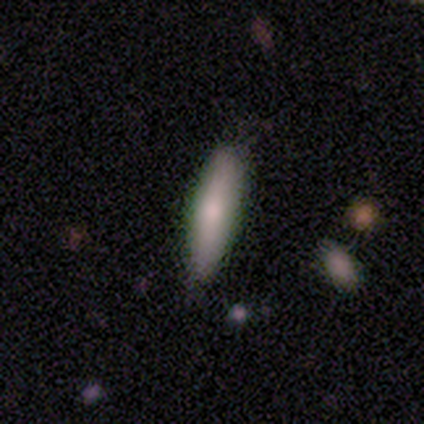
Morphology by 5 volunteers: A smooth galaxy with no disk features (60%) that is in between round and cigar-shaped (67%).

Vote fractions:
- Smooth or featured? smooth: 60% / featured or disk: 20% / star or artifact: 20%
- How rounded? in between: 67% / cigar-shaped: 33% / round: 0%
- Merging? none: 50% (tied) / minor disturbance: 50% (tied) / major disturbance: 0% / merger: 0%